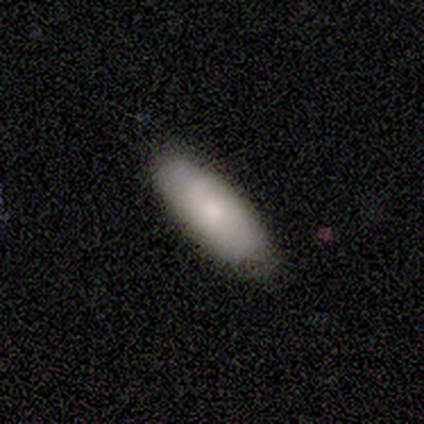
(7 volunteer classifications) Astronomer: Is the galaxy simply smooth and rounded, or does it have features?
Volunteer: smooth — 57% (runner-up: featured or disk, 43%).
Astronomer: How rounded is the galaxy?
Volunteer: in between — 75%.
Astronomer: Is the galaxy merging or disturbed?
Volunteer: none — 86%.